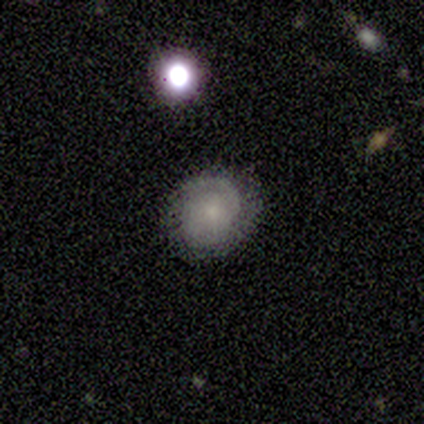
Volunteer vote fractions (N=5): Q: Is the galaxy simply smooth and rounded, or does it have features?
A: featured or disk — 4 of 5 (80%).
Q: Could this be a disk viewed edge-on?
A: no — 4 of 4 (100%).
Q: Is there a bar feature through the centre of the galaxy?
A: no — 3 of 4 (75%).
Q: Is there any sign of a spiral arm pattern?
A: yes — 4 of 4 (100%).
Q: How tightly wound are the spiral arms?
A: tight — 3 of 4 (75%).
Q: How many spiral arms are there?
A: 1 — 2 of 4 (50%).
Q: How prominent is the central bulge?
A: small — 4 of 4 (100%).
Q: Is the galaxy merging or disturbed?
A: none — 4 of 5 (80%).